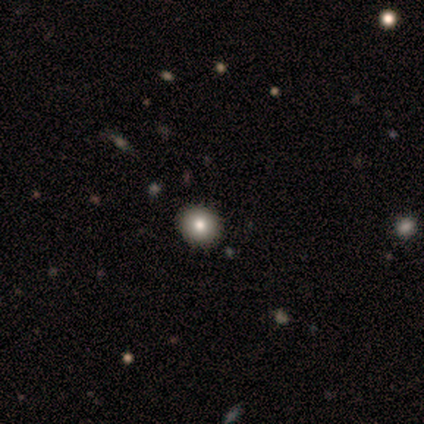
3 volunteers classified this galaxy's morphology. Smooth or featured? smooth (67%)
How rounded? round (100%)
Merging? none (67%)